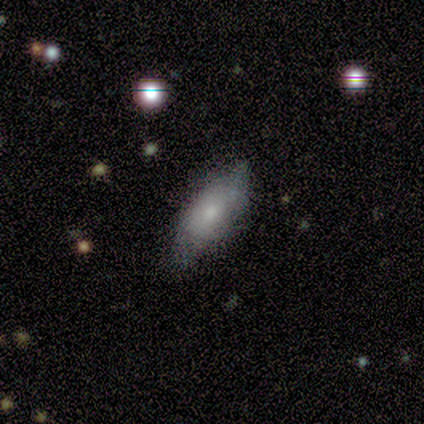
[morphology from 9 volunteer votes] Q: Smooth or featured?
A: smooth (44%); tied with: star or artifact (44%)
Q: How rounded?
A: in between (50%); tied with: cigar-shaped (50%)
Q: Merging?
A: none (60%); runner-up: minor disturbance (40%)